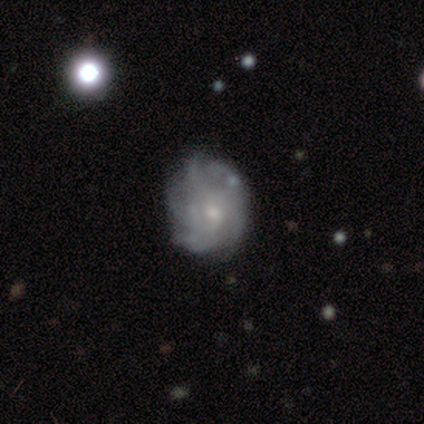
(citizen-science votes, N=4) A featured or disk galaxy (100%) with a weak bar (50%, tied with no), 4 (50%, tied with can't tell) medium (75%) spiral arms (100%) and a moderate central bulge (75%).

Vote fractions:
- Smooth or featured? featured or disk: 100% / smooth: 0% / star or artifact: 0%
- Edge-on disk? no: 100% / yes: 0%
- Bar? weak: 50% (tied) / no: 50% (tied) / strong: 0%
- Spiral arms? yes: 100% / no: 0%
- Spiral winding? medium: 75% / tight: 25% / loose: 0%
- Spiral arm count? 4: 50% (tied) / can't tell: 50% (tied) / 1: 0% / 2: 0% / 3: 0% / more than 4: 0%
- Bulge size? moderate: 75% / small: 25% / dominant: 0% / large: 0% / none: 0%
- Merging? none: 75% / major disturbance: 25% / minor disturbance: 0% / merger: 0%